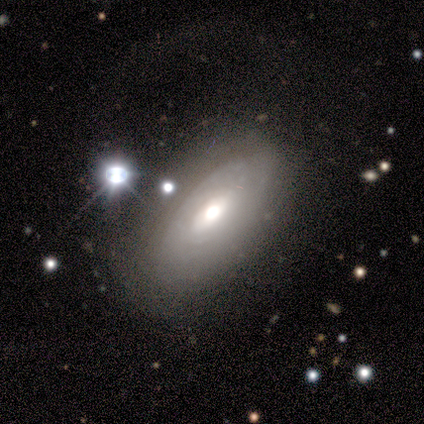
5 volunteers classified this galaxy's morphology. Smooth or featured? featured or disk (60%)
Edge-on disk? no (100%)
Bar? strong (67%)
Spiral arms? yes (100%)
Spiral winding? tight (67%)
Spiral arm count? can't tell (67%)
Bulge size? moderate (100%)
Merging? none (60%)